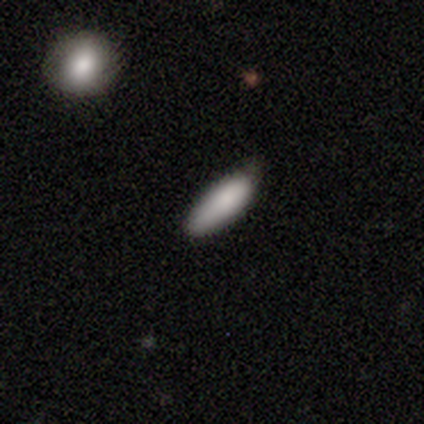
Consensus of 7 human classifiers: Smooth or featured: smooth — 100%
How rounded: in between — 71% (cigar-shaped — 29%)
Merging: none — 71% (minor disturbance — 29%)